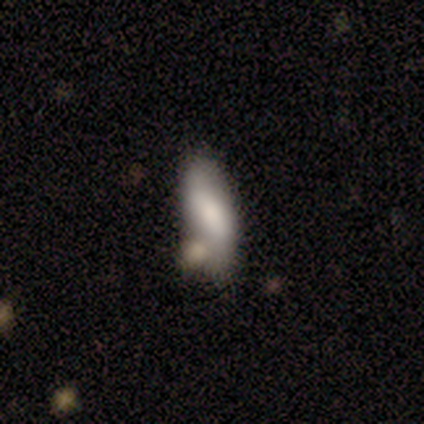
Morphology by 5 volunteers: type=smooth (100%); roundness=in between (80%); merging=none (60%).